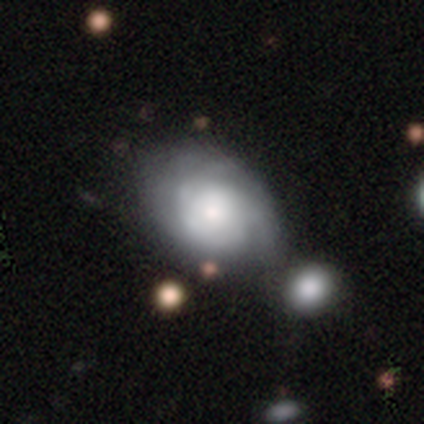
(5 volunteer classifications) Q: Smooth or featured?
A: smooth (60%); runner-up: featured or disk (40%)
Q: How rounded?
A: in between (67%); runner-up: round (33%)
Q: Merging?
A: none (60%); runner-up: minor disturbance (40%)